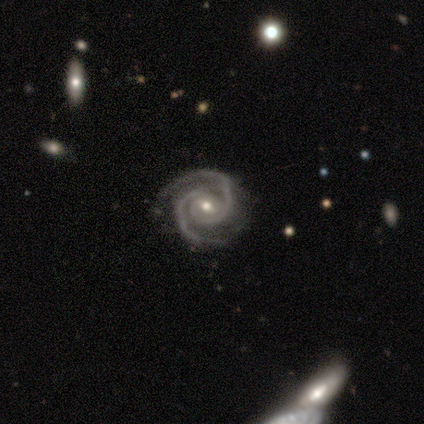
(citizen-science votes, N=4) Smooth or featured? 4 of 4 (100%) said featured or disk. Edge-on disk? 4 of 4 (100%) said no. Bar? 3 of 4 (75%) said no. Spiral arms? 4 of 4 (100%) said yes. Spiral winding? 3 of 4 (75%) said tight. Spiral arm count? 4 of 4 (100%) said 2. Bulge size? 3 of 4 (75%) said moderate. Merging? 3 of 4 (75%) said none.